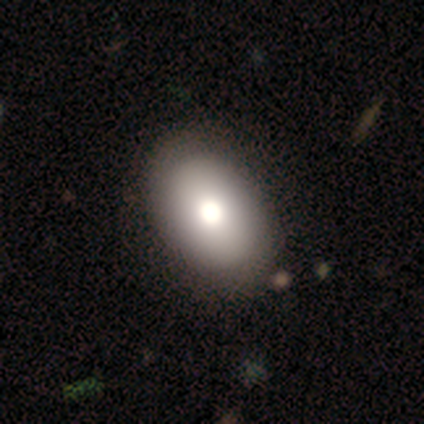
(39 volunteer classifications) smooth-or-featured: smooth: 82% | featured or disk: 18% | star or artifact: 0%
  how-rounded: in between: 91% | round: 9% | cigar-shaped: 0%
  merging: none: 59% | minor disturbance: 8% | major disturbance: 5% | merger: 3%